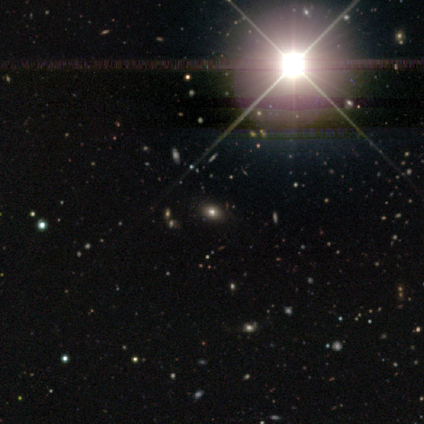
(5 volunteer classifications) smooth-or-featured: star or artifact: 100% | smooth: 0% | featured or disk: 0%